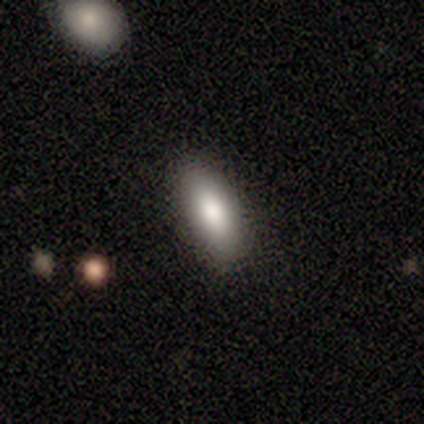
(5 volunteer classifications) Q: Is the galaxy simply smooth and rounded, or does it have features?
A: smooth — 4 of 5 (80%).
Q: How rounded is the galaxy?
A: in between — 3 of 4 (75%).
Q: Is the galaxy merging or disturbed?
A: minor disturbance — 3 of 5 (60%).